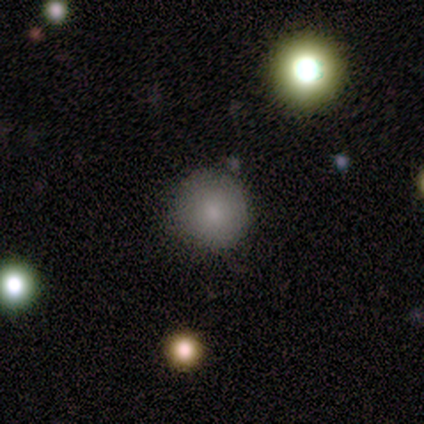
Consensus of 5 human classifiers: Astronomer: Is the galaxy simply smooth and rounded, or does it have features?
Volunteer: smooth — 100%.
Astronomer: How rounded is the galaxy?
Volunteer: round — 80%.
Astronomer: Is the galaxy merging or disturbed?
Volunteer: none — 60% (runner-up: minor disturbance, 40%).